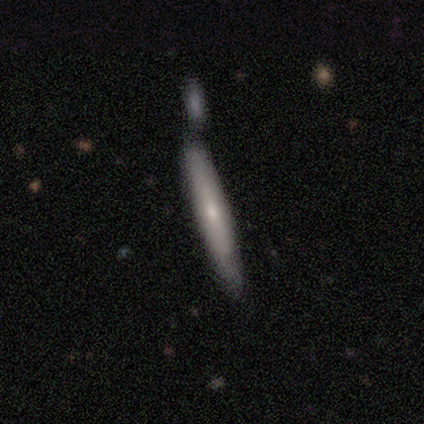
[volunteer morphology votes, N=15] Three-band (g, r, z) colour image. It shows a smooth galaxy with no disk features (60%) that is cigar-shaped (100%). Merging: none (36%).